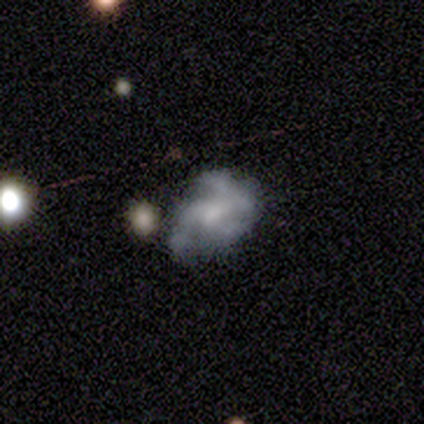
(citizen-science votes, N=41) featured or disk 73%, star or artifact 17%, smooth 10%. Down the decision tree: edge-on disk — no (100%); bar — no (53%); spiral arms — yes (63%); spiral arm count — 2 (32%); spiral winding — medium (42%); bulge size — small (43%); merging — none (47%).